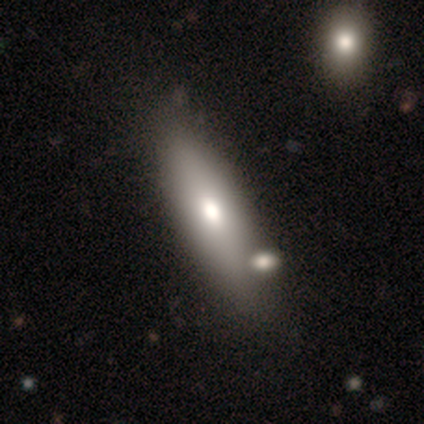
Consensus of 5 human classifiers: Volunteers were most divided on "smooth or featured": featured or disk: 60%, smooth: 40%, star or artifact: 0%. More confident: edge-on bulge — rounded (100%); merging — none (100%); edge-on disk — yes (67%).